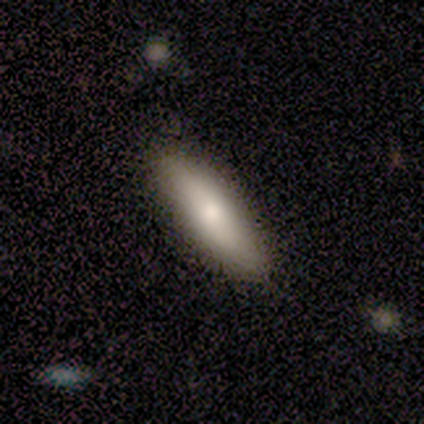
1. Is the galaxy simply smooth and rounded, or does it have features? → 60% smooth, 40% featured or disk, 0% star or artifact.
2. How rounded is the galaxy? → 67% in between, 33% cigar-shaped, 0% round.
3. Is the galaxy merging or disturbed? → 80% none, 20% minor disturbance, 0% major disturbance, 0% merger.